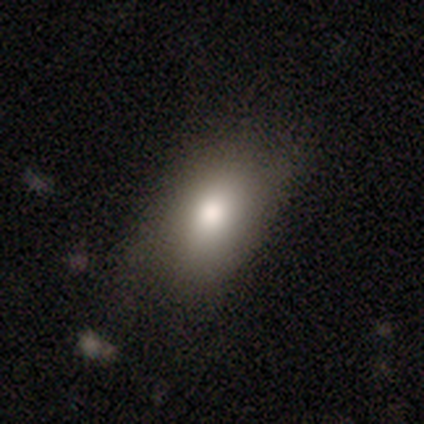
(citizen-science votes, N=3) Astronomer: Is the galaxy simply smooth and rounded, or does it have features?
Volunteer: smooth — 100%.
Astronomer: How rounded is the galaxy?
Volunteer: in between — 67%.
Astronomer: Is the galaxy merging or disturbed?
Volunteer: none — 67%.